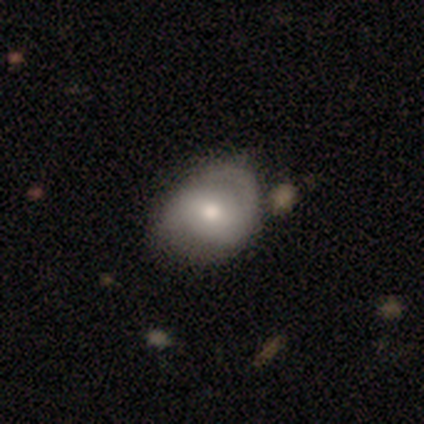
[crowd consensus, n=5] Smooth or featured?
  - featured or disk: 80% *
  - smooth: 20%
  - star or artifact: 0%
Edge-on disk?
  - no: 100% *
  - yes: 0%
Bar?
  - no: 100% *
  - strong: 0%
  - weak: 0%
Spiral arms?
  - no: 75% *
  - yes: 25%
Bulge size?
  - moderate: 75% *
  - dominant: 25%
  - large: 0%
  - small: 0%
  - none: 0%
Merging?
  - none: 60% *
  - major disturbance: 20%
  - merger: 20%
  - minor disturbance: 0%